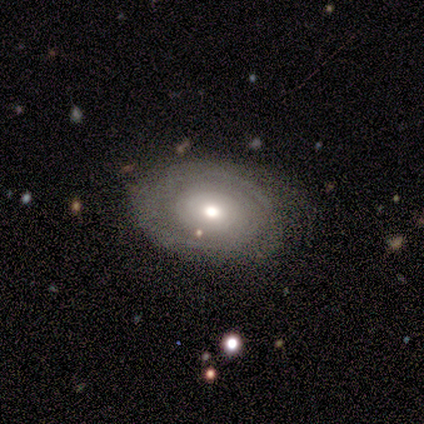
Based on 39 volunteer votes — Smooth or featured?
  - featured or disk: 69% *
  - smooth: 31%
  - star or artifact: 0%
Edge-on disk?
  - no: 100% *
  - yes: 0%
Bar?
  - no: 85% *
  - strong: 7%
  - weak: 7%
Spiral arms?
  - yes: 81% *
  - no: 19%
Spiral winding?
  - tight: 86% *
  - loose: 9%
  - medium: 5%
Spiral arm count?
  - can't tell: 55% *
  - 2: 14%
  - 1: 9%
  - 3: 9%
  - 4: 9%
  - more than 4: 5%
Bulge size?
  - moderate: 70% *
  - small: 26%
  - large: 4%
  - dominant: 0%
  - none: 0%
Merging?
  - none: 85% *
  - minor disturbance: 8%
  - major disturbance: 8%
  - merger: 0%